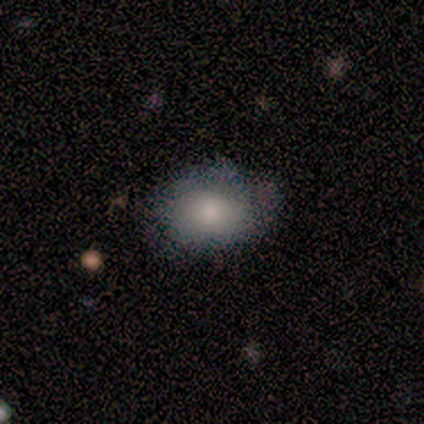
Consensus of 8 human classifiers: This is likely a smooth galaxy (62%). How rounded: clearly in between (80%). Merging: likely none (62%).